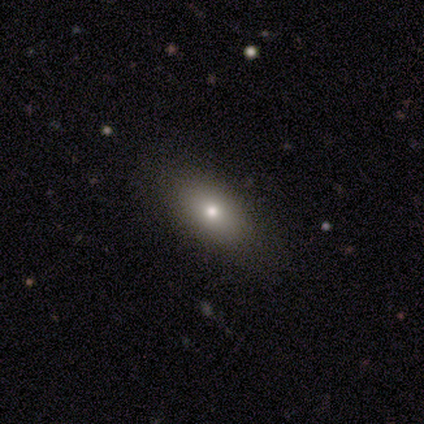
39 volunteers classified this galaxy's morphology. Smooth or featured? 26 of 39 (67%) said smooth. How rounded? 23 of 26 (88%) said in between. Merging? 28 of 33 (85%) said none.